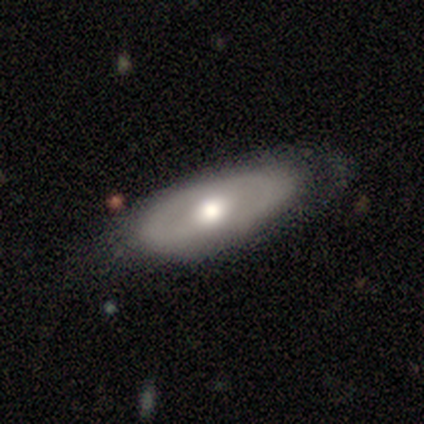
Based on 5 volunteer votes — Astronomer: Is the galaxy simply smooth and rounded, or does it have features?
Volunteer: smooth — 60% (runner-up: featured or disk, 40%).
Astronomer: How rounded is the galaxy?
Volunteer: in between — 100%.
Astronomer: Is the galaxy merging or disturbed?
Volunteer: none — 80%.